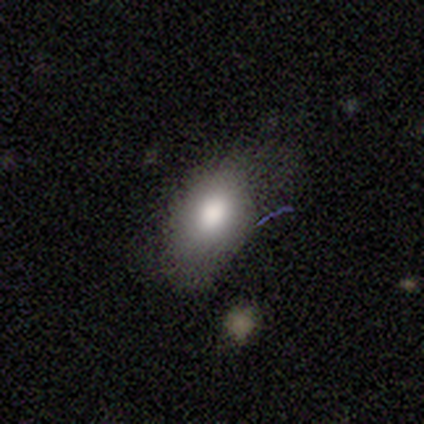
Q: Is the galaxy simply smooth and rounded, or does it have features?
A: smooth — 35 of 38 (92%).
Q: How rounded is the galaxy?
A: in between — 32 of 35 (91%).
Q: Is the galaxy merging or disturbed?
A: none — 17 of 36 (47%).